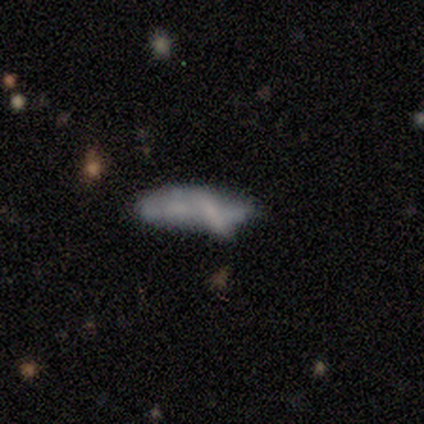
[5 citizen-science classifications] Morphology: type=smooth (80%); roundness=cigar-shaped (75%); merging=merger (40%).